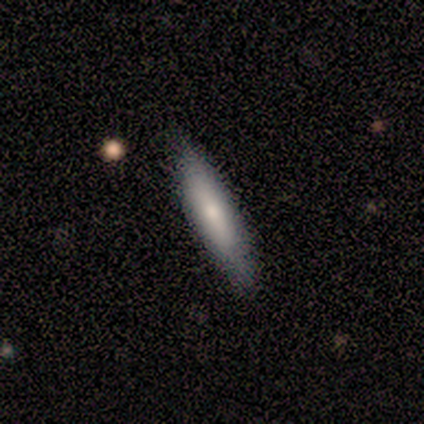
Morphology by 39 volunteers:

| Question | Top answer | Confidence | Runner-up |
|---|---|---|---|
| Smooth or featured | smooth | 67% | featured or disk (28%) |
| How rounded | cigar-shaped | 73% | in between (27%) |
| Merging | none | 84% | minor disturbance (16%) |